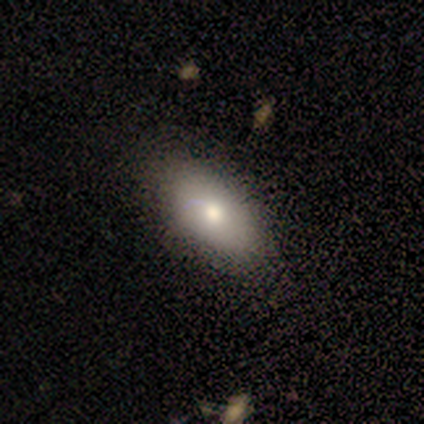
Smooth or featured? 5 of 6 (83%) said smooth. How rounded? 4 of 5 (80%) said in between. Merging? 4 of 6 (67%) said none.